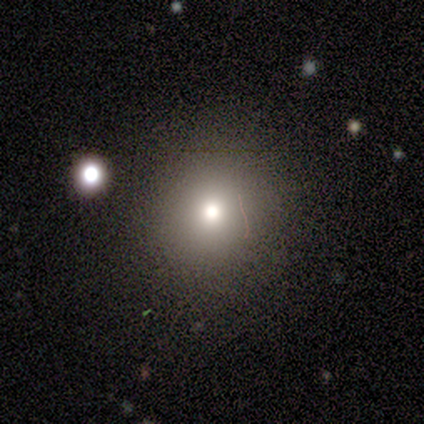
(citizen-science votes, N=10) Volunteers were most divided on "smooth or featured": smooth: 60%, star or artifact: 40%, featured or disk: 0%. More confident: how rounded — round (100%); merging — none (67%).